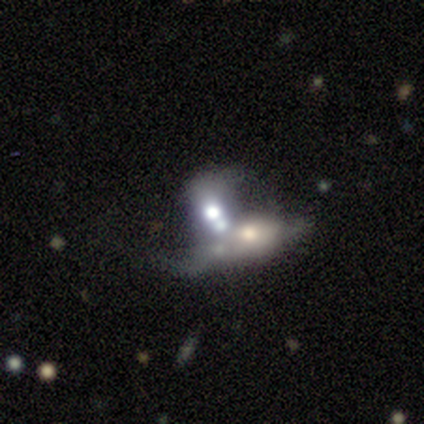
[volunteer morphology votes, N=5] Volunteers were most divided on "bulge size" (2-way tie): dominant: 50%, moderate: 50%, large: 0%, small: 0%, none: 0%. More confident: bar — no (100%); spiral arms — no (100%); merging — merger (80%); edge-on disk — no (67%); smooth or featured — featured or disk (60%).